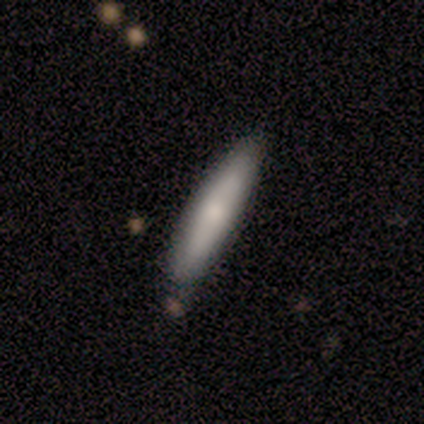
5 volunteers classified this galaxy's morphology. Overall: smooth (80%). How rounded: cigar-shaped (100%). Merging: none (80%).